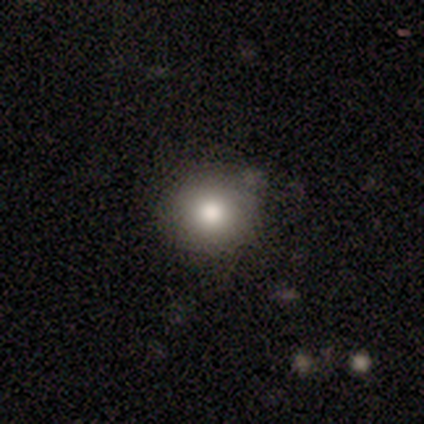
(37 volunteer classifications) This appears to be a smooth galaxy with no disk features (86%) that is round (94%). Merging: none (70%).